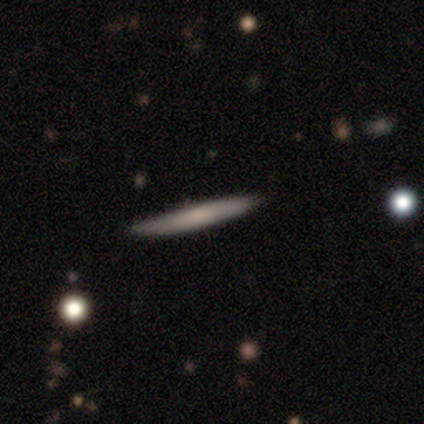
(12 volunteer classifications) smooth_or_featured: featured or disk (p=0.50) [alt: smooth p=0.42]
disk_edge_on: yes (p=1.00)
edge_on_bulge: none (p=0.50) [alt: rounded p=0.33]
merging: none (p=0.91) [alt: minor disturbance p=0.09]